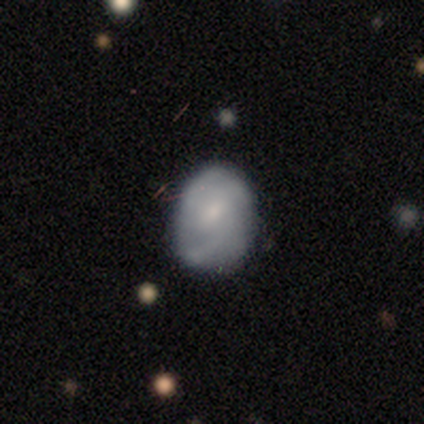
smooth 54%, featured or disk 42%, star or artifact 5%. Down the decision tree: how rounded — in between (80%); merging — none (54%).